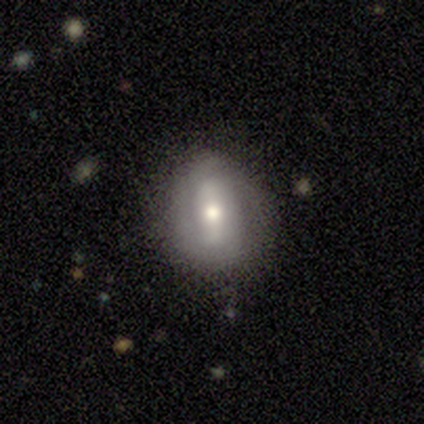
This is possibly a smooth galaxy (50%, tied with featured or disk). How rounded: possibly round (50%, tied with in between). Merging: clearly none (100%).